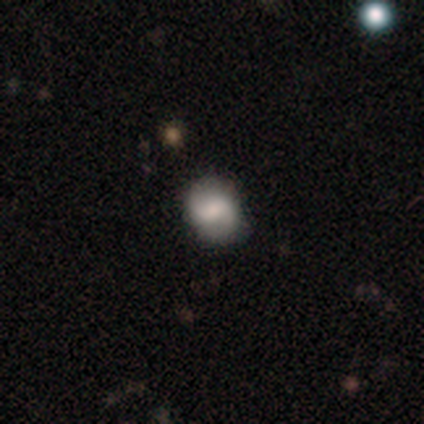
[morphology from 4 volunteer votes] Smooth or featured? featured or disk (75%)
Edge-on disk? no (100%)
Bar? weak (67%)
Spiral arms? yes (100%)
Spiral winding? loose (67%)
Spiral arm count? 2 (67%)
Bulge size? dominant (33%, tied with large and small)
Merging? none (100%)